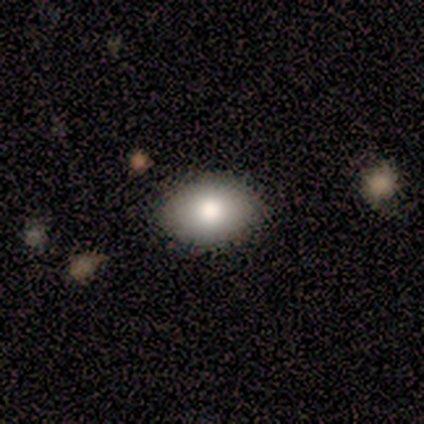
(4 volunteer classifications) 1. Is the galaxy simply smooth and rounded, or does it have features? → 100% smooth, 0% featured or disk, 0% star or artifact.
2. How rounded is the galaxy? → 75% in between, 25% round, 0% cigar-shaped.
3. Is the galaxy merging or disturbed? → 100% none, 0% minor disturbance, 0% major disturbance, 0% merger.